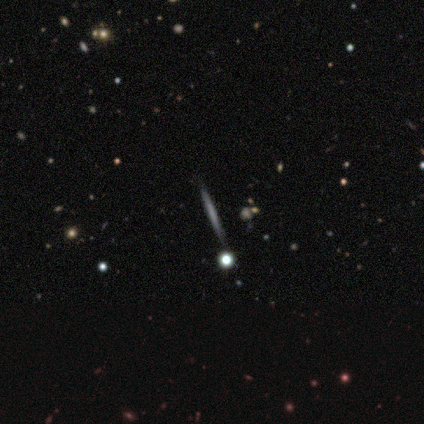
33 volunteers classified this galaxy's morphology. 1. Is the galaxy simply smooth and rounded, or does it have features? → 45% smooth, 39% featured or disk, 15% star or artifact.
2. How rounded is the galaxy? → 87% cigar-shaped, 7% round, 7% in between.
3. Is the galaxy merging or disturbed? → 93% none, 7% minor disturbance, 0% major disturbance, 0% merger.